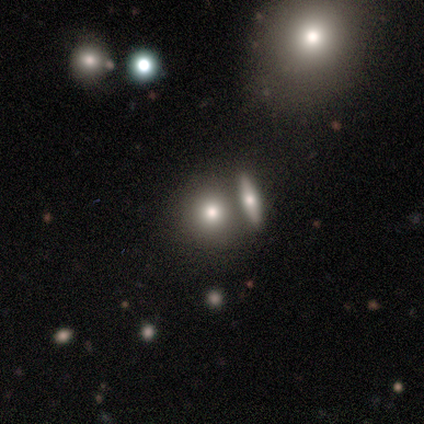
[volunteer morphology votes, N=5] Volunteers were most divided on "smooth or featured": smooth: 60%, featured or disk: 20%, star or artifact: 20%. More confident: how rounded — round (100%); merging — merger (75%).